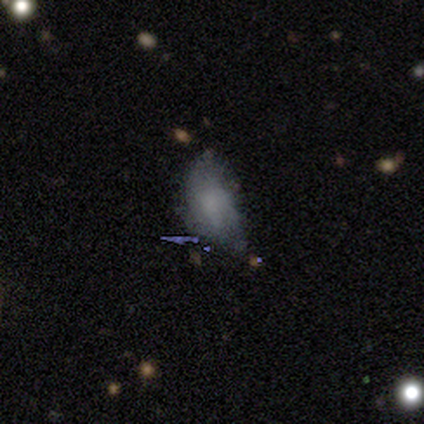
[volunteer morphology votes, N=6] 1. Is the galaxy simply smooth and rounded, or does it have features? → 100% smooth, 0% featured or disk, 0% star or artifact.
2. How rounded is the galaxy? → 100% in between, 0% round, 0% cigar-shaped.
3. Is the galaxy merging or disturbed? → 100% minor disturbance, 0% none, 0% major disturbance, 0% merger.